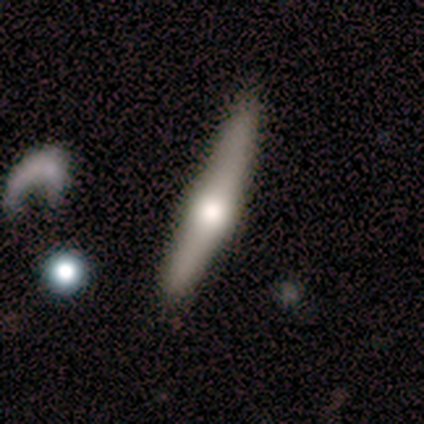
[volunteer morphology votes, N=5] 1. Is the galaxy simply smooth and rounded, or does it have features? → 60% featured or disk, 40% smooth, 0% star or artifact.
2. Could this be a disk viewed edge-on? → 100% yes, 0% no.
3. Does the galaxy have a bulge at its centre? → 100% rounded, 0% boxy, 0% none.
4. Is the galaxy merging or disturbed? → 80% none, 20% merger, 0% minor disturbance, 0% major disturbance.